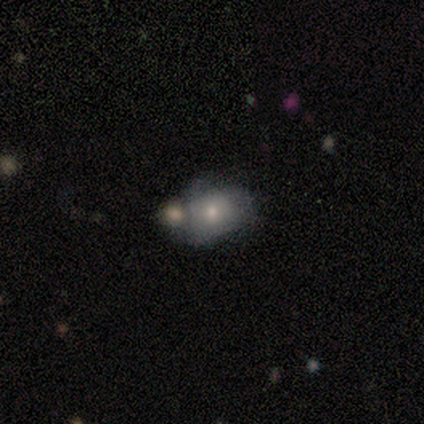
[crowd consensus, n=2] Morphology: type=smooth (100%); roundness=round (50%, tied with in between); merging=none (50%, tied with merger).